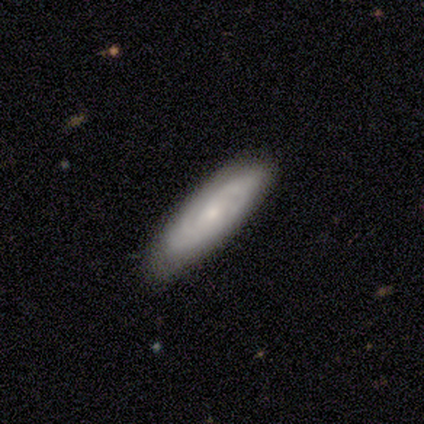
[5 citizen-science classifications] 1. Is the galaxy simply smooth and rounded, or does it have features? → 80% featured or disk, 20% smooth, 0% star or artifact.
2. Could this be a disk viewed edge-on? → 100% no, 0% yes.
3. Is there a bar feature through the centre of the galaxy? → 75% no, 25% strong, 0% weak.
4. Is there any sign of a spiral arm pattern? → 100% yes, 0% no.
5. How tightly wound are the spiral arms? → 75% tight, 25% medium, 0% loose.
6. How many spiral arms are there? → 50% can't tell, 25% 1, 25% 4, 0% 2, 0% 3, 0% more than 4.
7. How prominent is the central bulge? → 50% moderate (tied), 50% small (tied), 0% dominant, 0% large, 0% none.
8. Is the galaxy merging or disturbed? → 80% none, 20% minor disturbance, 0% major disturbance, 0% merger.